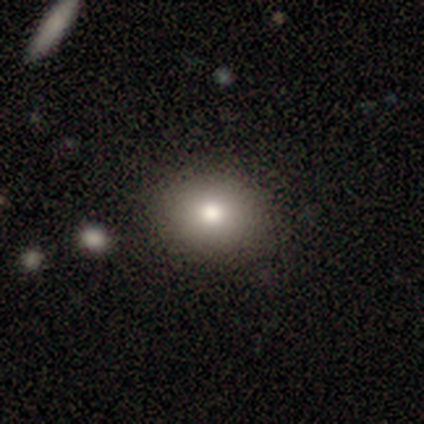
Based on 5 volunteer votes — Smooth or featured? smooth (100%)
How rounded? round (100%)
Merging? none (80%)